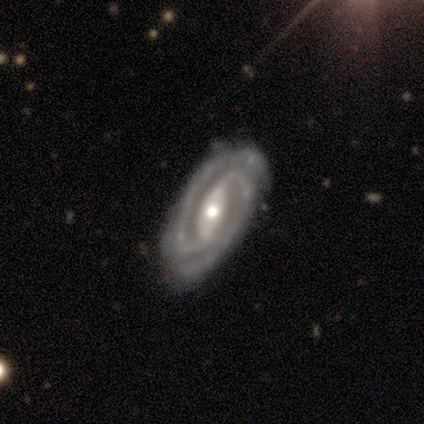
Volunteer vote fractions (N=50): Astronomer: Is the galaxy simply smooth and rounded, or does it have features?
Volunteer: featured or disk — 98%.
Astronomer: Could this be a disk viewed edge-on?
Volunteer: no — 98%.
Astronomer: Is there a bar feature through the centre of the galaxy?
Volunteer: strong — 56% (runner-up: weak, 33%).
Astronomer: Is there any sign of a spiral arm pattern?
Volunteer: yes — 100%.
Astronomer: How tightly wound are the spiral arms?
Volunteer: tight — 73%.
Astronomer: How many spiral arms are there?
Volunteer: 2 — 96%.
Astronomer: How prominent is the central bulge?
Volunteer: moderate — 75%.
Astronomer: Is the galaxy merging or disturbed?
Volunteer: none — 76%.